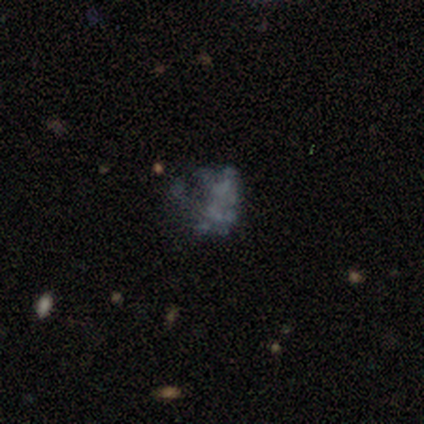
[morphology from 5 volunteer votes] Overall: featured or disk (80%). Edge-on disk: no (100%). Bar: no (100%). Spiral arms: no (100%). Bulge size: none (75%). Merging: none (50%, tied with major disturbance).